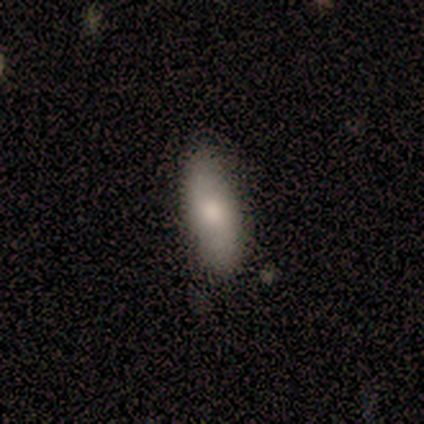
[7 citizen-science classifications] Smooth or featured? 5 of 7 (71%) said smooth. How rounded? 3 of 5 (60%) said in between. Merging? 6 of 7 (86%) said none.